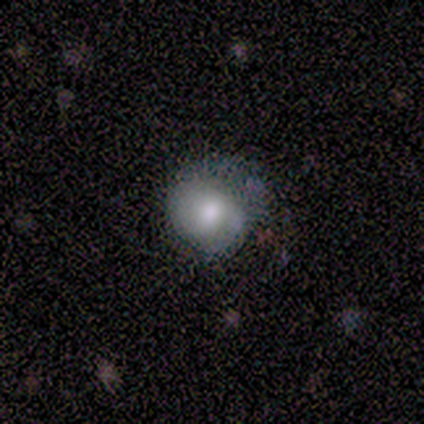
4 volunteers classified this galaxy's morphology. A smooth galaxy with no disk features (75%) that is round (67%). Merging: none (67%).